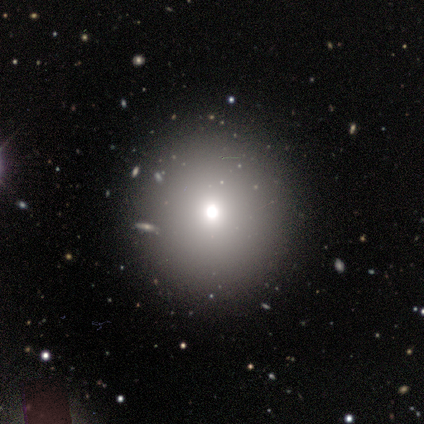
Volunteers were most divided on "smooth or featured": smooth: 80%, featured or disk: 20%, star or artifact: 0%. More confident: how rounded — round (100%); merging — none (100%).